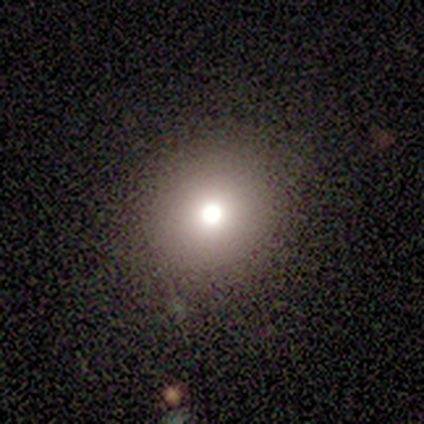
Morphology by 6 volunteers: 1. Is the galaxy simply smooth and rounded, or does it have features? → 100% smooth, 0% featured or disk, 0% star or artifact.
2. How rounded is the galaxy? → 83% round, 17% in between, 0% cigar-shaped.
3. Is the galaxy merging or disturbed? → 100% none, 0% minor disturbance, 0% major disturbance, 0% merger.